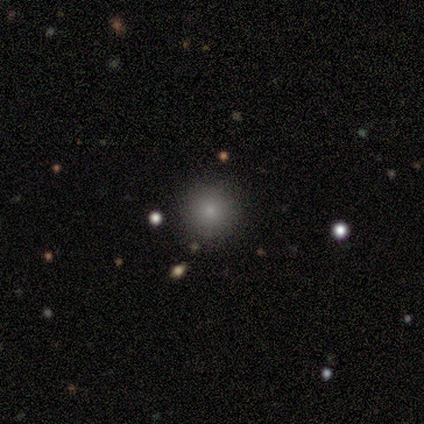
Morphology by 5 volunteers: Volunteers were most divided on "smooth or featured": smooth: 60%, star or artifact: 40%, featured or disk: 0%. More confident: how rounded — round (100%); merging — none (100%).